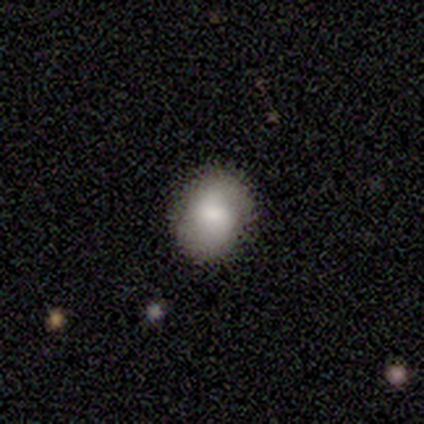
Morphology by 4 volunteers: Smooth or featured? smooth (75%)
How rounded? round (67%)
Merging? none (100%)